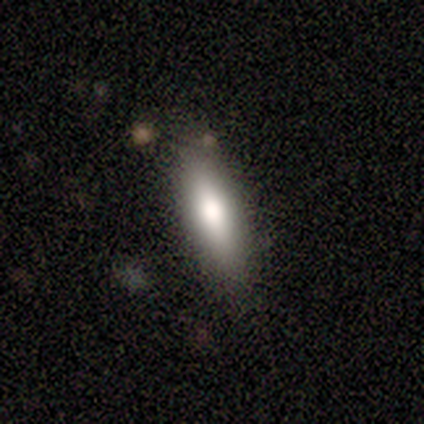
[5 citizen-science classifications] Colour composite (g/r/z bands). It shows a smooth galaxy with no disk features (100%) that is in between round and cigar-shaped (60%). Merging: none (100%).